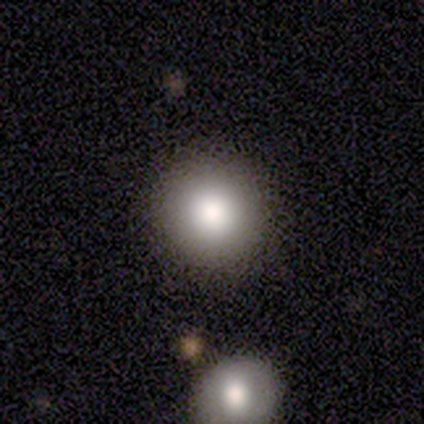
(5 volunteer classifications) Smooth or featured?
  - smooth: 60% *
  - star or artifact: 40%
  - featured or disk: 0%
How rounded?
  - round: 100% *
  - in between: 0%
  - cigar-shaped: 0%
Merging?
  - none: 100% *
  - minor disturbance: 0%
  - major disturbance: 0%
  - merger: 0%